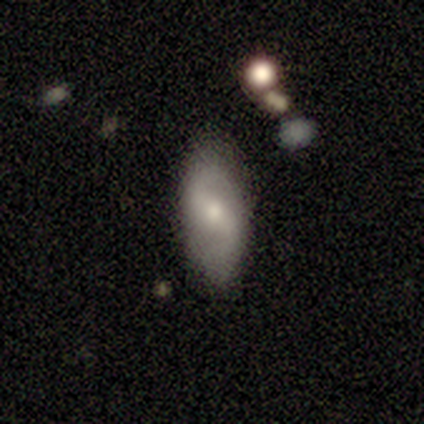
smooth 60%, featured or disk 40%, star or artifact 0%. Down the decision tree: how rounded — in between (100%); merging — minor disturbance (60%).